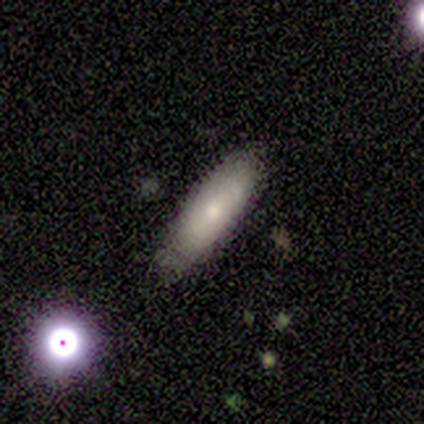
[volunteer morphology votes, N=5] Smooth or featured: smooth — 80% (featured or disk — 20%)
How rounded: in between — 50% (tied with cigar-shaped — 50%)
Merging: none — 40% (tied with minor disturbance — 40%)